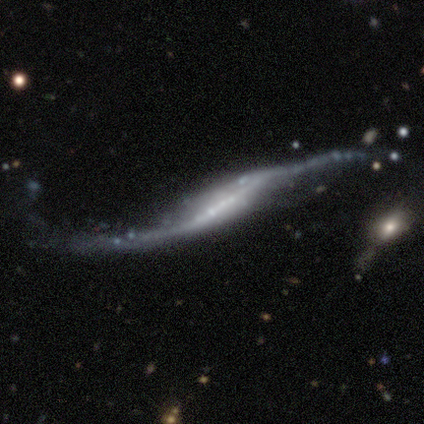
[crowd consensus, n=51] A featured or disk galaxy (90%) viewed edge-on (50%, tied with no) with a boxy central bulge (35%, tied with rounded). Merging: major disturbance (40%).